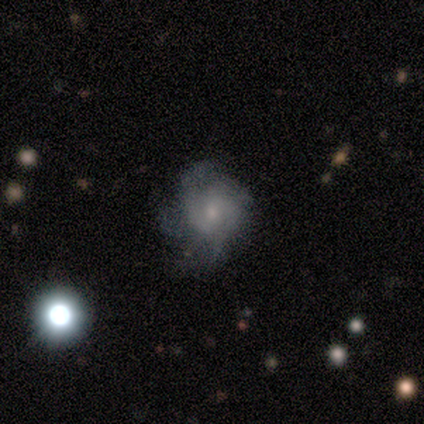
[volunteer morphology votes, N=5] A featured or disk galaxy (100%) with no bar (80%), medium (80%) spiral arms (100%) and a moderate central bulge (60%).

Vote fractions:
- Smooth or featured? featured or disk: 100% / smooth: 0% / star or artifact: 0%
- Edge-on disk? no: 100% / yes: 0%
- Bar? no: 80% / weak: 20% / strong: 0%
- Spiral arms? yes: 100% / no: 0%
- Spiral winding? medium: 80% / tight: 20% / loose: 0%
- Spiral arm count? can't tell: 60% / 2: 20% / 3: 20% / 1: 0% / 4: 0% / more than 4: 0%
- Bulge size? moderate: 60% / small: 40% / dominant: 0% / large: 0% / none: 0%
- Merging? none: 60% / minor disturbance: 20% / major disturbance: 20% / merger: 0%